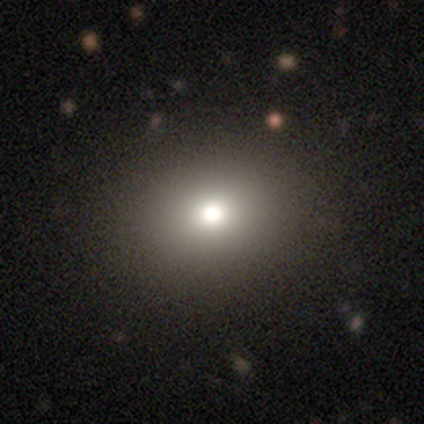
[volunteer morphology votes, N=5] Volunteers were most divided on "how rounded": in between: 60%, round: 40%, cigar-shaped: 0%. More confident: smooth or featured — smooth (100%); merging — none (100%).